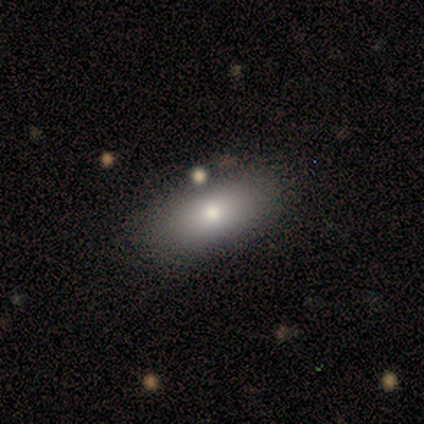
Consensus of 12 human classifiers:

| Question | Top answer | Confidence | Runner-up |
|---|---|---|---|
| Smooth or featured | smooth | 92% | featured or disk (8%) |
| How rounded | in between | 91% | cigar-shaped (9%) |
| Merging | none | 75% | minor disturbance (17%) |